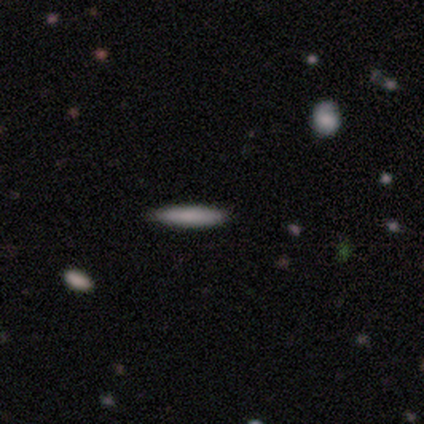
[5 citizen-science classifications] Smooth or featured: smooth — 60% (featured or disk — 40%)
How rounded: cigar-shaped — 100%
Merging: none — 80% (minor disturbance — 20%)